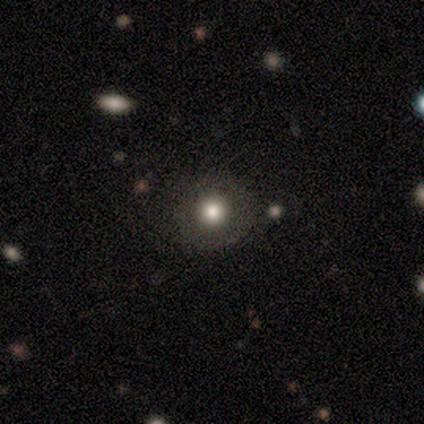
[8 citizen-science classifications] This appears to be a smooth galaxy with no disk features (75%) that is round (100%). Merging: none (71%).